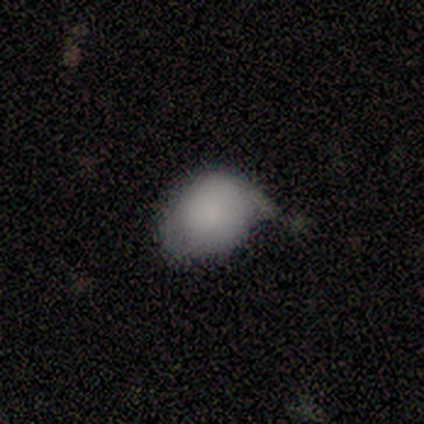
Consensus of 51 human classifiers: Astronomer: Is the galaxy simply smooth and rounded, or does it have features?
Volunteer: smooth — 75%.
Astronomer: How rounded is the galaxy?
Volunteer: in between — 55% (runner-up: round, 45%).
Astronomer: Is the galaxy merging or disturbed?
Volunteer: minor disturbance — 61%.